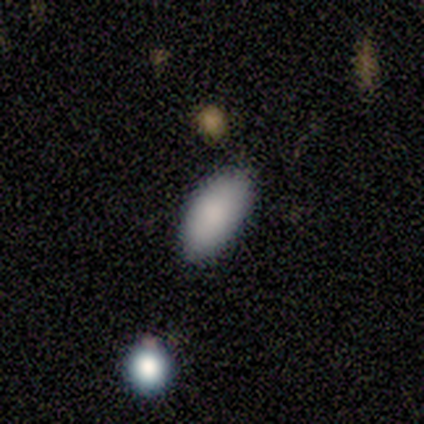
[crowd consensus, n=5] Smooth or featured?
  - smooth: 100% *
  - featured or disk: 0%
  - star or artifact: 0%
How rounded?
  - in between: 100% *
  - round: 0%
  - cigar-shaped: 0%
Merging?
  - none: 100% *
  - minor disturbance: 0%
  - major disturbance: 0%
  - merger: 0%